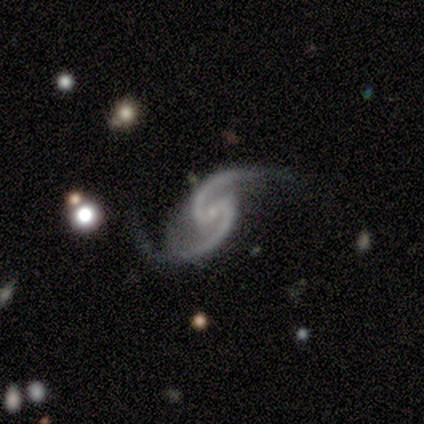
This is clearly a featured or disk galaxy (100%). It is clearly not viewed edge-on (100%). Bar: likely weak (60%). Spiral arm pattern: clearly yes (100%). Spiral arm count: clearly 2 (100%). Spiral winding: clearly loose (80%). Central bulge: clearly small (100%). Merging: likely minor disturbance (60%).